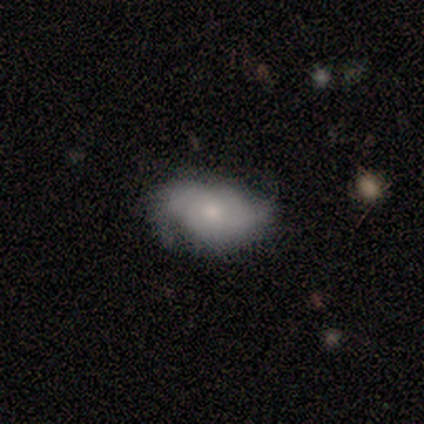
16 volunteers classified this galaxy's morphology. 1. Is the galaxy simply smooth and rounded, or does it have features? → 50% smooth (tied), 50% featured or disk (tied), 0% star or artifact.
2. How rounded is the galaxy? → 88% in between, 12% round, 0% cigar-shaped.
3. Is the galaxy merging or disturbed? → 69% none, 25% minor disturbance, 6% merger, 0% major disturbance.